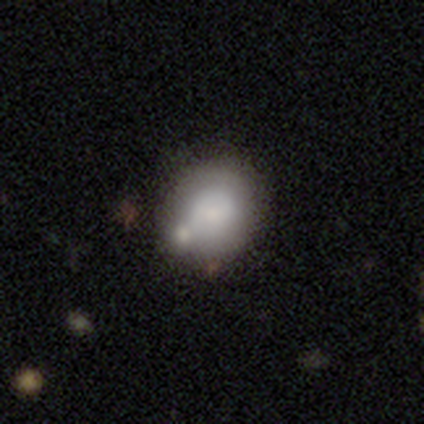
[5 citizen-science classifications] Smooth or featured?
  - smooth: 80% *
  - featured or disk: 20%
  - star or artifact: 0%
How rounded?
  - round: 100% *
  - in between: 0%
  - cigar-shaped: 0%
Merging?
  - none: 60% *
  - minor disturbance: 20%
  - merger: 20%
  - major disturbance: 0%